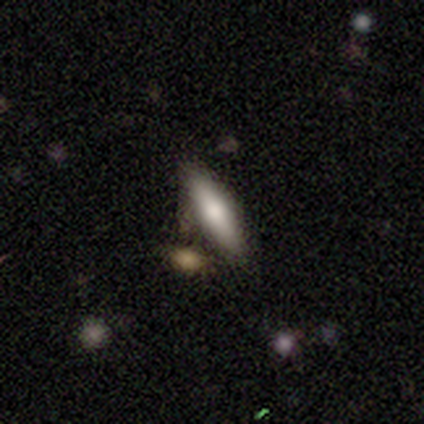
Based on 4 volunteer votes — Smooth or featured? 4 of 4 (100%) said smooth. How rounded? 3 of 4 (75%) said cigar-shaped. Merging? 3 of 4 (75%) said none.